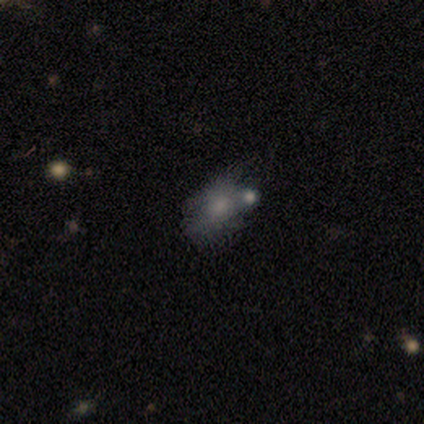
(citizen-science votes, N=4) This is clearly a smooth galaxy (100%). How rounded: likely in between (75%). Merging: possibly minor disturbance (50%).